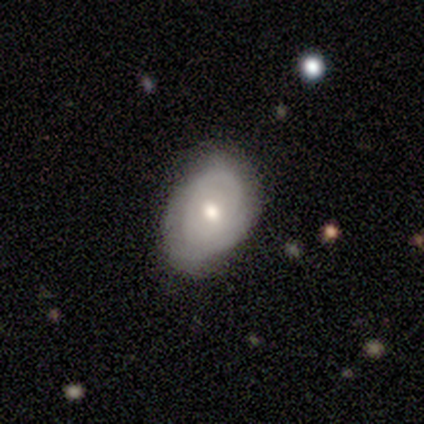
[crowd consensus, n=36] Q: Smooth or featured?
A: featured or disk (56%); runner-up: smooth (44%)
Q: Edge-on disk?
A: no (100%)
Q: Bar?
A: no (75%); runner-up: weak (25%)
Q: Spiral arms?
A: yes (75%); runner-up: no (25%)
Q: Spiral winding?
A: tight (60%); runner-up: medium (40%)
Q: Spiral arm count?
A: can't tell (60%); runner-up: 2 (20%)
Q: Bulge size?
A: moderate (70%); runner-up: small (25%)
Q: Merging?
A: none (75%); runner-up: minor disturbance (22%)